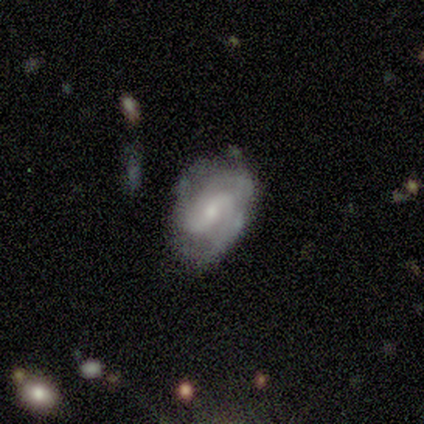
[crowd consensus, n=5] smooth_or_featured: featured or disk (p=0.80) [alt: smooth p=0.20]
disk_edge_on: no (p=0.75) [alt: yes p=0.25]
bar: weak (p=0.67) [alt: no p=0.33]
has_spiral_arms: yes (p=1.00)
spiral_winding: medium (p=0.67) [alt: tight p=0.33]
spiral_arm_count: 2 (p=0.33) [tied with: 3 p=0.33, can't tell p=0.33]
bulge_size: moderate (p=0.67) [alt: small p=0.33]
merging: none (p=0.80) [alt: major disturbance p=0.20]